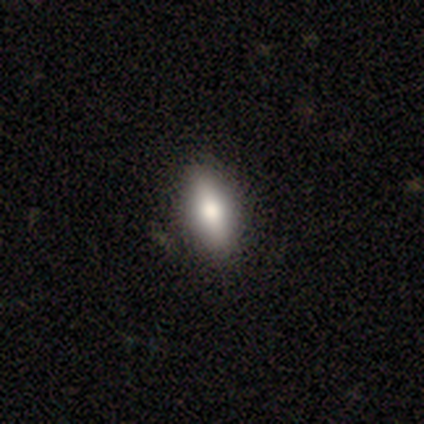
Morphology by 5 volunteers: Volunteers were most divided on "how rounded" (2-way tie): in between: 50%, cigar-shaped: 50%, round: 0%. More confident: smooth or featured — smooth (80%); merging — none (80%).